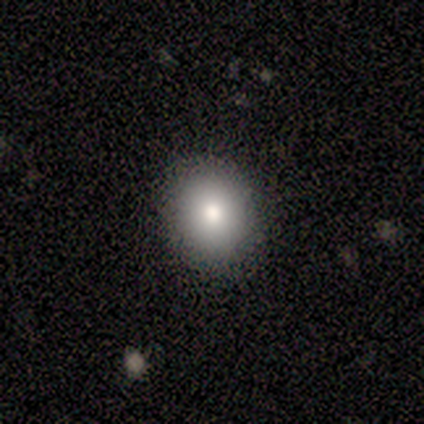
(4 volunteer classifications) smooth_or_featured: smooth (p=0.50) [alt: featured or disk p=0.25]
how_rounded: round (p=1.00)
merging: none (p=0.67) [alt: merger p=0.33]